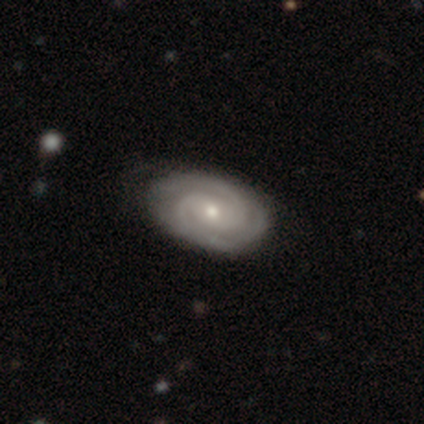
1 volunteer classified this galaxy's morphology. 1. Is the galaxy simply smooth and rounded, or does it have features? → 100% featured or disk, 0% smooth, 0% star or artifact.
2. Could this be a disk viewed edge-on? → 100% no, 0% yes.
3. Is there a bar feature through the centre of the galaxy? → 100% no, 0% strong, 0% weak.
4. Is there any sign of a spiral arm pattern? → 100% yes, 0% no.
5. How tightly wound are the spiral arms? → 100% tight, 0% medium, 0% loose.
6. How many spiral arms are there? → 100% 2, 0% 1, 0% 3, 0% 4, 0% more than 4, 0% can't tell.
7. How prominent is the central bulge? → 100% moderate, 0% dominant, 0% large, 0% small, 0% none.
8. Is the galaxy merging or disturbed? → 100% minor disturbance, 0% none, 0% major disturbance, 0% merger.